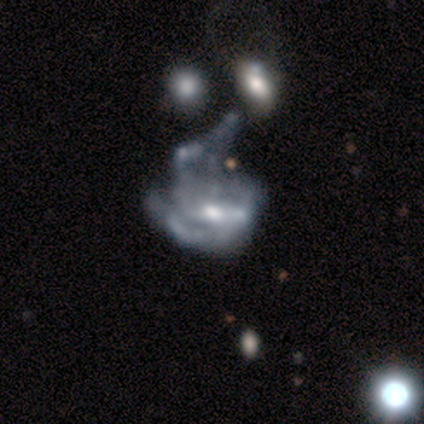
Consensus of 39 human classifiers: A featured or disk galaxy (85%) with no bar (45%), no spiral arms (61%) and a small central bulge (45%). Merging: major disturbance (53%).